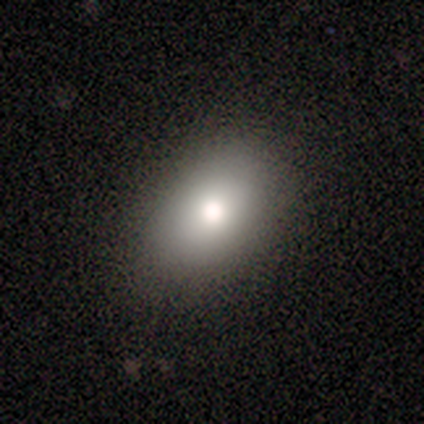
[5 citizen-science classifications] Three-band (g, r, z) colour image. It shows a smooth galaxy with no disk features (100%) that is in between round and cigar-shaped (80%). Merging: none (100%).